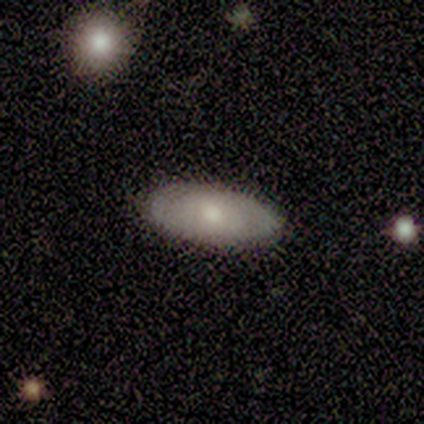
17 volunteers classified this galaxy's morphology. Smooth or featured? smooth (82%)
How rounded? in between (100%)
Merging? none (88%)